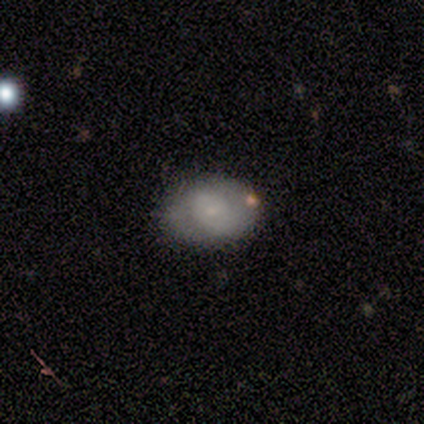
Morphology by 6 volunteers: Volunteers were most divided on "smooth or featured" (2-way tie): smooth: 50%, featured or disk: 50%, star or artifact: 0%. More confident: how rounded — in between (100%); merging — none (83%).